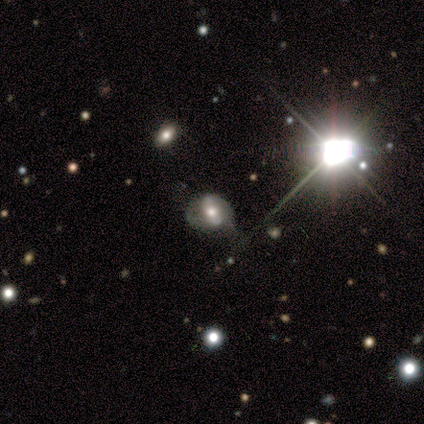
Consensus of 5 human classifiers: Volunteers were most divided on "bulge size": moderate: 67%, small: 33%, dominant: 0%, large: 0%, none: 0%. More confident: edge-on disk — no (100%); bar — no (100%); spiral arms — no (100%); merging — none (75%); smooth or featured — featured or disk (60%).